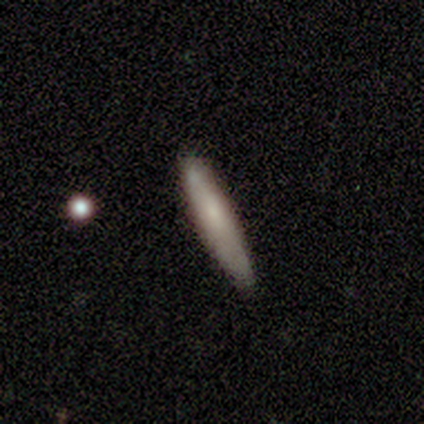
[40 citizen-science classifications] Smooth or featured?
  - smooth: 80% *
  - featured or disk: 20%
  - star or artifact: 0%
How rounded?
  - cigar-shaped: 91% *
  - in between: 9%
  - round: 0%
Merging?
  - none: 72% *
  - minor disturbance: 22%
  - merger: 5%
  - major disturbance: 0%